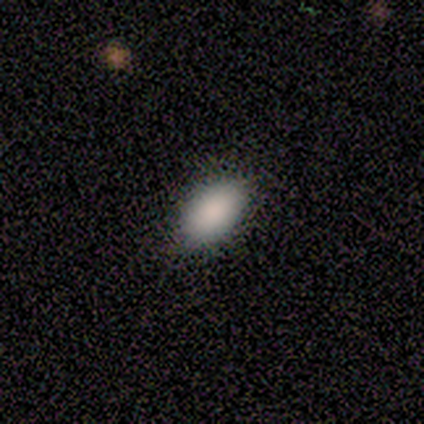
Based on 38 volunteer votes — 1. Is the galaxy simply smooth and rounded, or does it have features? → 87% smooth, 13% star or artifact, 0% featured or disk.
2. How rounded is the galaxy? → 88% in between, 9% cigar-shaped, 3% round.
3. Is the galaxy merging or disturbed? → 55% none, 9% minor disturbance, 0% major disturbance, 0% merger.